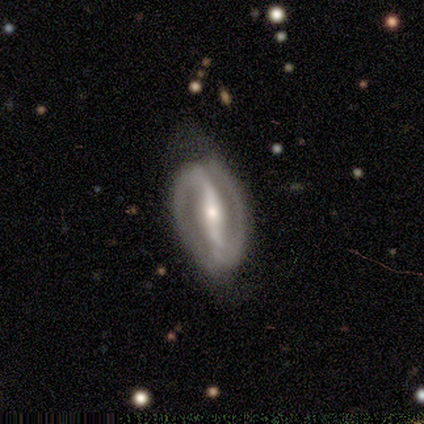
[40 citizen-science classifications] featured or disk 95%, smooth 2%, star or artifact 2%. Down the decision tree: edge-on disk — no (100%); bar — strong (89%); spiral arms — yes (95%); spiral arm count — 2 (100%); spiral winding — medium (58%); bulge size — moderate (47%); merging — none (62%).